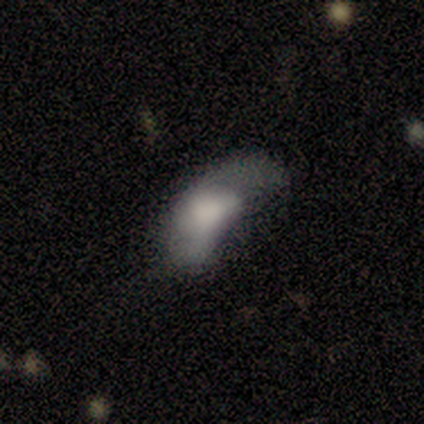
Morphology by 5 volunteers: smooth_or_featured: smooth (p=0.60) [alt: featured or disk p=0.20]
how_rounded: round (p=0.33) [tied with: in between p=0.33, cigar-shaped p=0.33]
merging: minor disturbance (p=0.50) [tied with: major disturbance p=0.50]